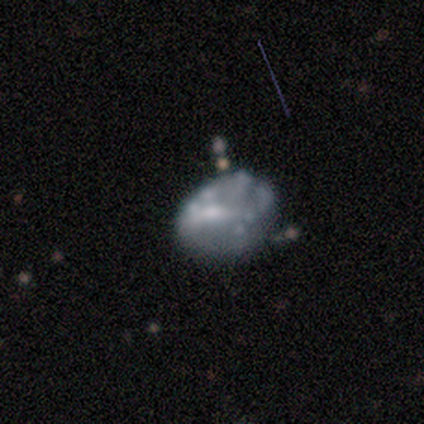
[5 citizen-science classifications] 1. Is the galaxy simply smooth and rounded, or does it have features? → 80% featured or disk, 20% star or artifact, 0% smooth.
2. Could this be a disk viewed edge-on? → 100% no, 0% yes.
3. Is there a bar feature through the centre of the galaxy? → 75% no, 25% weak, 0% strong.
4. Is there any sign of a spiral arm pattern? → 100% no, 0% yes.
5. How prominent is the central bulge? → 75% none, 25% moderate, 0% dominant, 0% large, 0% small.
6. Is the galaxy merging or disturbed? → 50% minor disturbance, 25% none, 25% major disturbance, 0% merger.